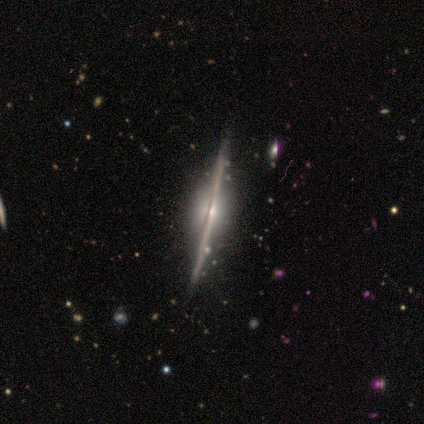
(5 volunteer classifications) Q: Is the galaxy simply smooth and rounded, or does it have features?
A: featured or disk — 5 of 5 (100%).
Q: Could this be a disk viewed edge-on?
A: yes — 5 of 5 (100%).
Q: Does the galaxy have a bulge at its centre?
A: rounded — 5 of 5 (100%).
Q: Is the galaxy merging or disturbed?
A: none — 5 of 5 (100%).